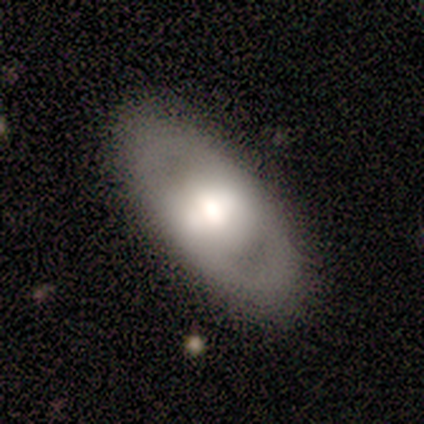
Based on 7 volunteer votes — Smooth or featured?
  - smooth: 57% *
  - featured or disk: 43%
  - star or artifact: 0%
How rounded?
  - in between: 100% *
  - round: 0%
  - cigar-shaped: 0%
Merging?
  - none: 57% *
  - minor disturbance: 43%
  - major disturbance: 0%
  - merger: 0%